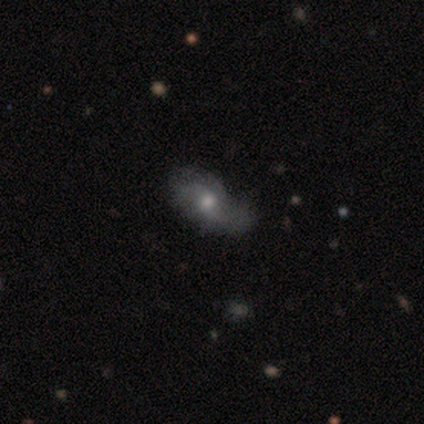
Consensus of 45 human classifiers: This appears to be a featured or disk galaxy (62%) with no bar (63%), 2 (96%) loose (74%) spiral arms (85%) and a moderate central bulge (63%). Merging: none (44%).